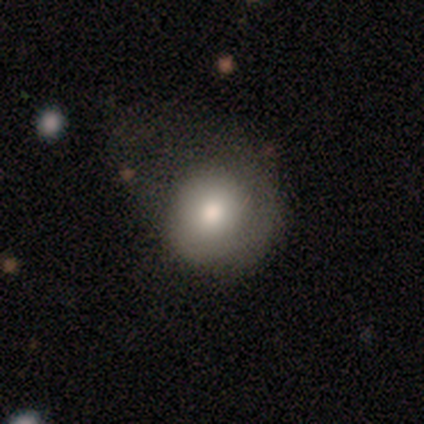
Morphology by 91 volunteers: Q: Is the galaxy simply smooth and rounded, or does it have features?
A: smooth — 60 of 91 (66%).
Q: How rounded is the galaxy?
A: round — 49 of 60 (82%).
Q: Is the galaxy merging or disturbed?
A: none — 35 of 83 (42%).